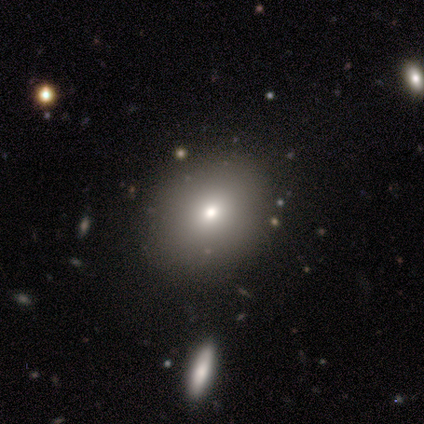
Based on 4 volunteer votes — Smooth or featured: smooth — 75% (featured or disk — 25%)
How rounded: in between — 100%
Merging: none — 75% (merger — 25%)